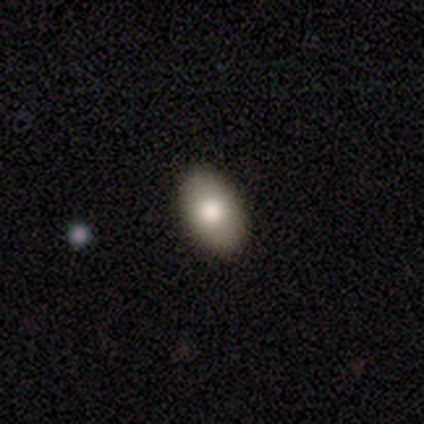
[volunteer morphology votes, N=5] A smooth galaxy with no disk features (100%) that is in between round and cigar-shaped (100%). Merging: none (100%).